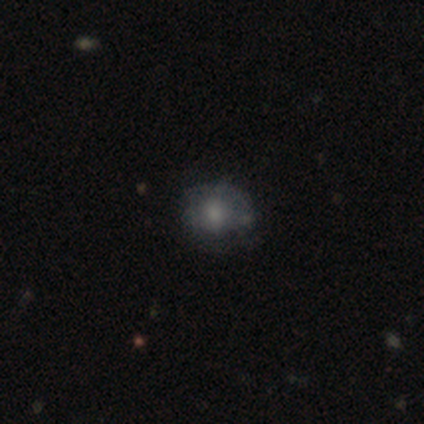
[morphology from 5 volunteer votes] smooth-or-featured: featured or disk: 80% | smooth: 20% | star or artifact: 0%
  disk-edge-on: no: 75% | yes: 25%
    bar: weak: 67% | no: 33% | strong: 0%
    has-spiral-arms: yes: 67% | no: 33%
      spiral-winding: tight: 50% (tied) | medium: 50% (tied) | loose: 0%
      spiral-arm-count: 2: 50% (tied) | can't tell: 50% (tied) | 1: 0% | 3: 0% | 4: 0% | more than 4: 0%
    bulge-size: moderate: 67% | none: 33% | dominant: 0% | large: 0% | small: 0%
  merging: none: 60% | minor disturbance: 40% | major disturbance: 0% | merger: 0%